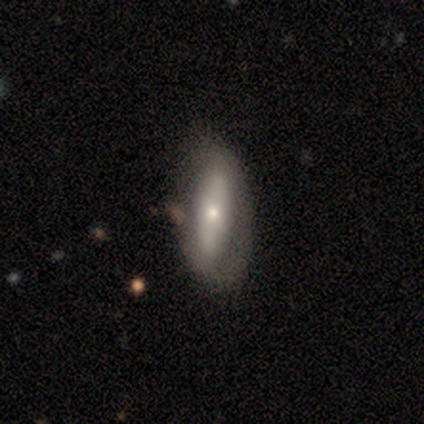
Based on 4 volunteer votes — Smooth or featured? featured or disk (50%, tied with star or artifact)
Edge-on disk? yes (50%, tied with no)
Edge-on bulge? rounded (100%)
Merging? none (50%, tied with minor disturbance)